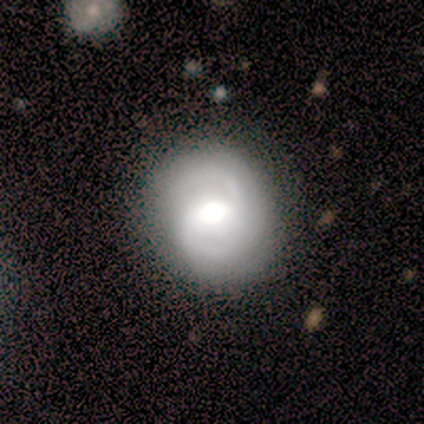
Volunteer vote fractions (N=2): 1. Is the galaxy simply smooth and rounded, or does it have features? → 100% featured or disk, 0% smooth, 0% star or artifact.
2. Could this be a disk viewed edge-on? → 100% no, 0% yes.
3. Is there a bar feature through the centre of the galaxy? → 100% weak, 0% strong, 0% no.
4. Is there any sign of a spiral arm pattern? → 100% yes, 0% no.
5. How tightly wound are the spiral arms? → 50% tight (tied), 50% medium (tied), 0% loose.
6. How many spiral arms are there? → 50% 2 (tied), 50% 3 (tied), 0% 1, 0% 4, 0% more than 4, 0% can't tell.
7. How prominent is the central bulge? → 50% large (tied), 50% moderate (tied), 0% dominant, 0% small, 0% none.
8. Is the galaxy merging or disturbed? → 100% none, 0% minor disturbance, 0% major disturbance, 0% merger.